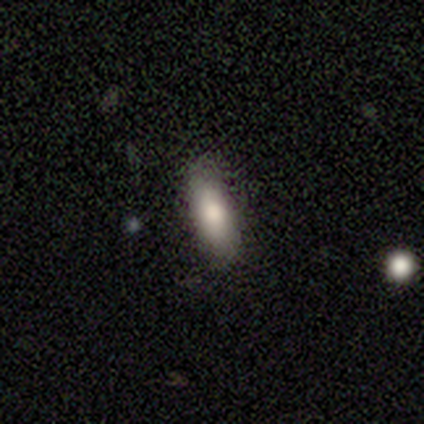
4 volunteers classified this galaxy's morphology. Overall: smooth (75%). How rounded: in between (100%). Merging: none (100%).